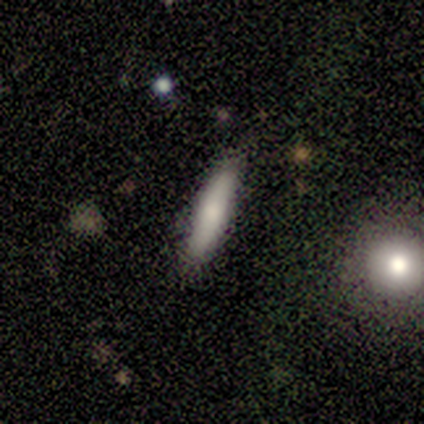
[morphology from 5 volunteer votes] Smooth or featured? 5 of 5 (100%) said smooth. How rounded? 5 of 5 (100%) said cigar-shaped. Merging? 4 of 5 (80%) said none.